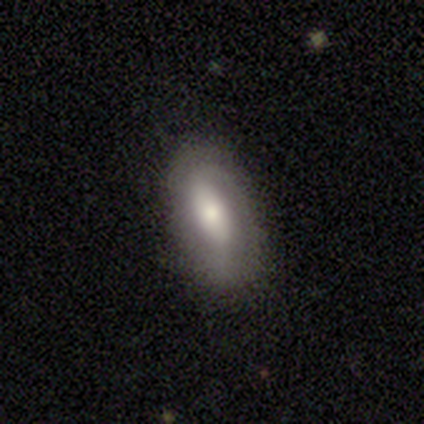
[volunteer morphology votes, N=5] Q: Smooth or featured?
A: smooth (60%); runner-up: featured or disk (40%)
Q: How rounded?
A: in between (100%)
Q: Merging?
A: none (80%); runner-up: minor disturbance (20%)